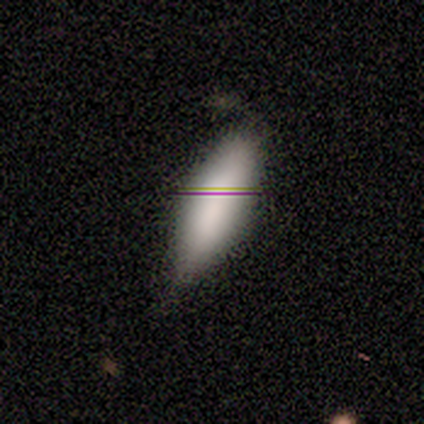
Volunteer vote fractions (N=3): Smooth or featured?
  - smooth: 67% *
  - featured or disk: 33%
  - star or artifact: 0%
How rounded?
  - in between: 50% * (tied)
  - cigar-shaped: 50% * (tied)
  - round: 0%
Merging?
  - minor disturbance: 67% *
  - none: 33%
  - major disturbance: 0%
  - merger: 0%